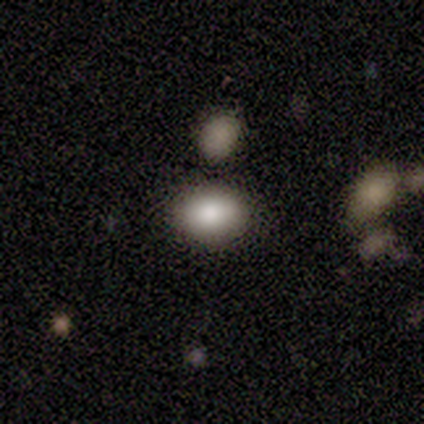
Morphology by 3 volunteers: Smooth or featured? smooth (100%)
How rounded? in between (100%)
Merging? none (100%)